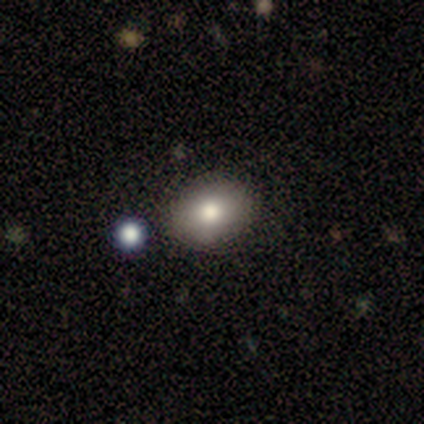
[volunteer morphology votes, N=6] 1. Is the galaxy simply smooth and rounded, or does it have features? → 67% smooth, 33% featured or disk, 0% star or artifact.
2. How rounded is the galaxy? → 100% in between, 0% round, 0% cigar-shaped.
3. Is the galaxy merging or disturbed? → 83% none, 17% minor disturbance, 0% major disturbance, 0% merger.